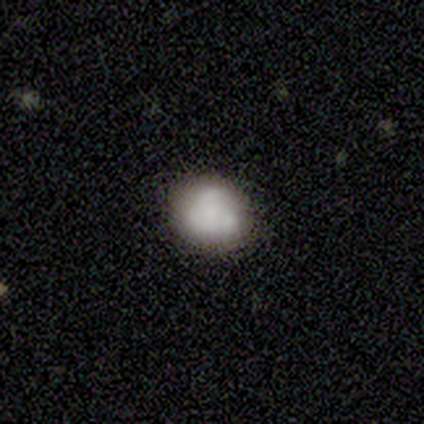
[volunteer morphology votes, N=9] Overall: smooth (56%; featured or disk 33%). How rounded: in between (100%). Merging: none (62%; minor disturbance 38%).